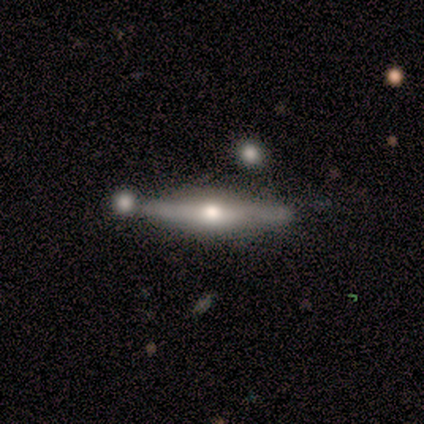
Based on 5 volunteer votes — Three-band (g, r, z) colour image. It shows a featured or disk galaxy (100%) viewed edge-on (80%) with a rounded central bulge (75%). Merging: none (80%).